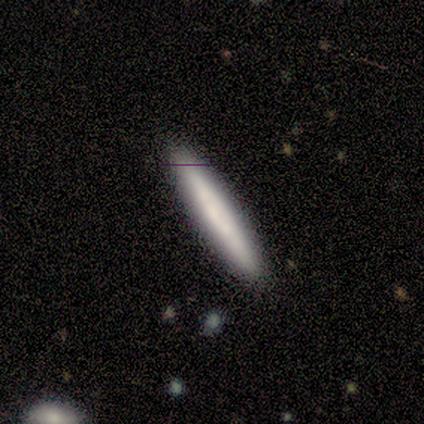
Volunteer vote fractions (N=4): Q: Smooth or featured?
A: smooth (100%)
Q: How rounded?
A: cigar-shaped (100%)
Q: Merging?
A: none (75%); runner-up: minor disturbance (25%)